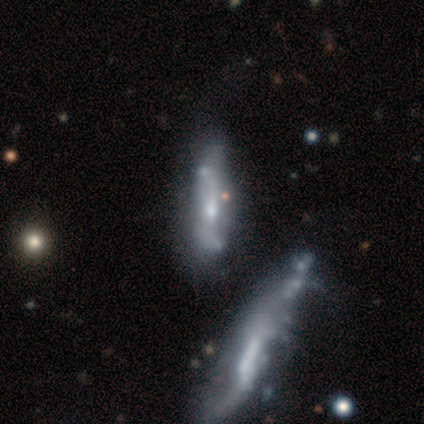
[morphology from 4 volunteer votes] Smooth or featured? 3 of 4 (75%) said featured or disk. Edge-on disk? 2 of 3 (67%) said no. Bar? 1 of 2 (50%, tied with weak) said strong. Spiral arms? 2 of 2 (100%) said yes. Spiral winding? 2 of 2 (100%) said loose. Spiral arm count? 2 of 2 (100%) said 2. Bulge size? 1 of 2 (50%, tied with small) said moderate. Merging? 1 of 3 (33%, tied with minor disturbance and major disturbance) said none.